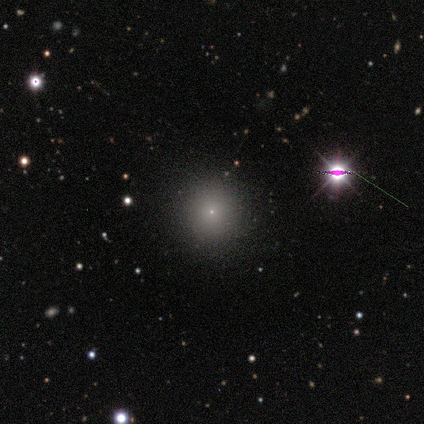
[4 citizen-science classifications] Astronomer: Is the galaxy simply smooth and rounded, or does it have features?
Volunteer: star or artifact — 50%.